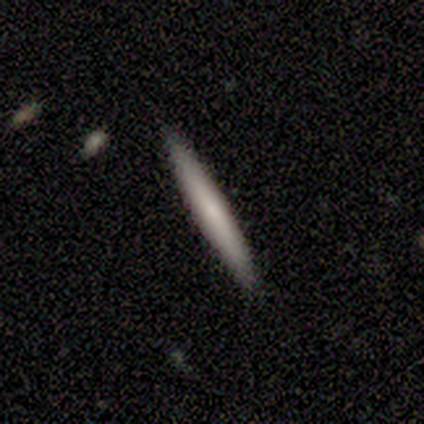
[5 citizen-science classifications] Overall: smooth (100%). How rounded: cigar-shaped (100%). Merging: none (80%).